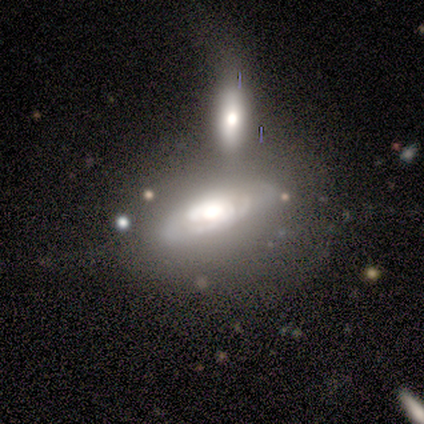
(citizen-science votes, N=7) This appears to be a featured or disk galaxy (71%) with no bar (80%), tight (67%) spiral arms (60%) and a large central bulge (80%). Merging: none (57%).